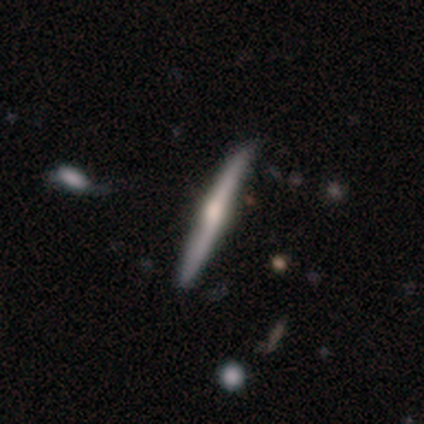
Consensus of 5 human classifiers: A featured or disk galaxy (80%) viewed edge-on (100%) with a rounded central bulge (100%). Merging: none (80%).